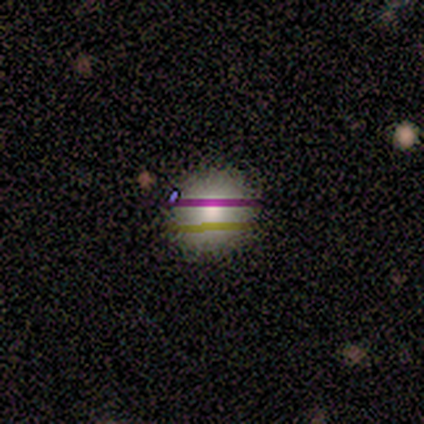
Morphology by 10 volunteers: A smooth galaxy with no disk features (60%) that is round (100%).

Vote fractions:
- Smooth or featured? smooth: 60% / star or artifact: 30% / featured or disk: 10%
- How rounded? round: 100% / in between: 0% / cigar-shaped: 0%
- Merging? none: 100% / minor disturbance: 0% / major disturbance: 0% / merger: 0%